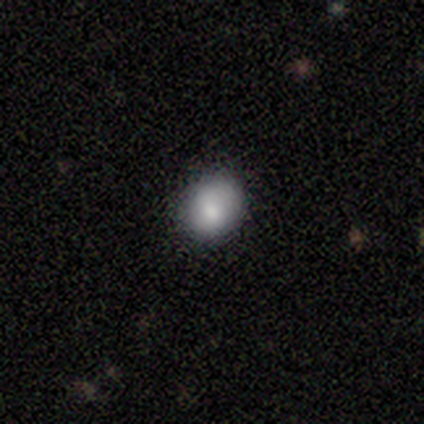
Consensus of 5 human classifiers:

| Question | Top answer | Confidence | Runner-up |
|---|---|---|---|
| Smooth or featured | smooth | 100% | — |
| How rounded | round | 80% | in between (20%) |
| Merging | none | 40% | tied: minor disturbance (40%) |